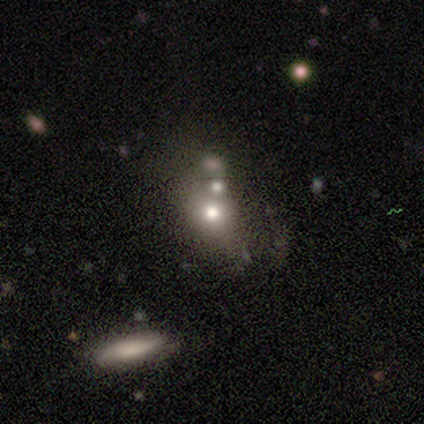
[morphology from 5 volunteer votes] A smooth galaxy with no disk features (100%) that is round (80%).

Vote fractions:
- Smooth or featured? smooth: 100% / featured or disk: 0% / star or artifact: 0%
- How rounded? round: 80% / in between: 20% / cigar-shaped: 0%
- Merging? merger: 40% / none: 20% / minor disturbance: 20% / major disturbance: 20%